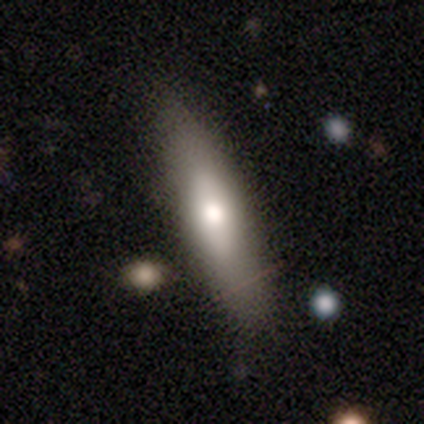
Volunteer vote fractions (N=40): A smooth galaxy with no disk features (57%) that is cigar-shaped (74%). Merging: none (79%).